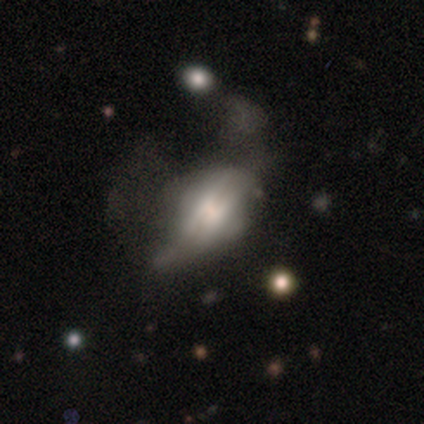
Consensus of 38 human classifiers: Overall: featured or disk (61%; smooth 34%). Edge-on disk: no (52%; yes 48%). Bar: no (58%; weak 25%). Spiral arms: no (75%). Bulge size: large (50%; moderate 25%). Merging: major disturbance (56%; minor disturbance 28%).